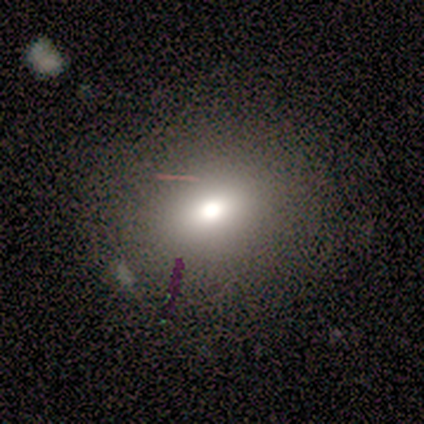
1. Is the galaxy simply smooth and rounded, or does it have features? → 75% smooth, 25% featured or disk, 0% star or artifact.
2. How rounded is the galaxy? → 100% round, 0% in between, 0% cigar-shaped.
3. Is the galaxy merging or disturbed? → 75% none, 25% minor disturbance, 0% major disturbance, 0% merger.